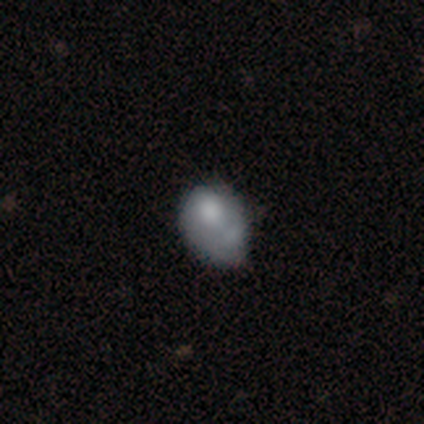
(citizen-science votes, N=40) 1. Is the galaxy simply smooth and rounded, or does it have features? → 60% smooth, 35% featured or disk, 5% star or artifact.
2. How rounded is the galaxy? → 71% in between, 29% round, 0% cigar-shaped.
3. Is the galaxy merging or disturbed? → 47% minor disturbance, 24% none, 18% major disturbance, 11% merger.